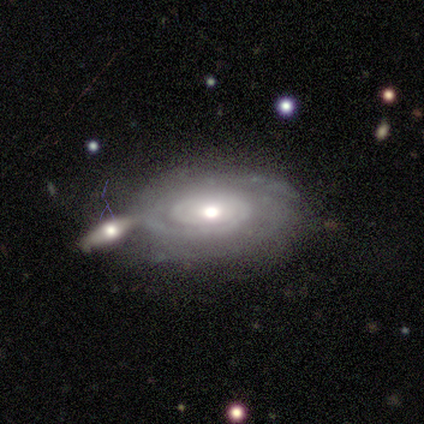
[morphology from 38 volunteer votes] This is clearly a featured or disk galaxy (87%). It is clearly not viewed edge-on (91%). Bar: clearly no (90%). Spiral arm pattern: clearly yes (90%). Spiral arm count: marginally 2 (37%, tied with can't tell). Spiral winding: clearly tight (89%). Central bulge: likely moderate (63%). Merging: marginally merger (43%).